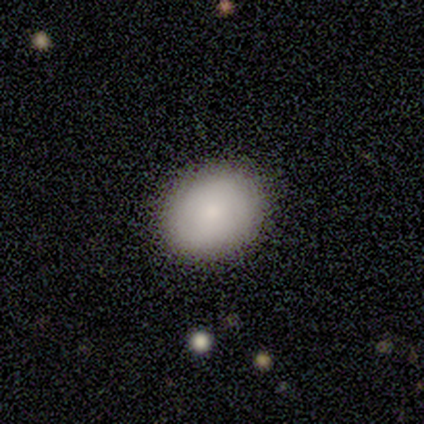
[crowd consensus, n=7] Smooth or featured?
  - smooth: 86% *
  - featured or disk: 14%
  - star or artifact: 0%
How rounded?
  - round: 50% * (tied)
  - in between: 50% * (tied)
  - cigar-shaped: 0%
Merging?
  - none: 100% *
  - minor disturbance: 0%
  - major disturbance: 0%
  - merger: 0%